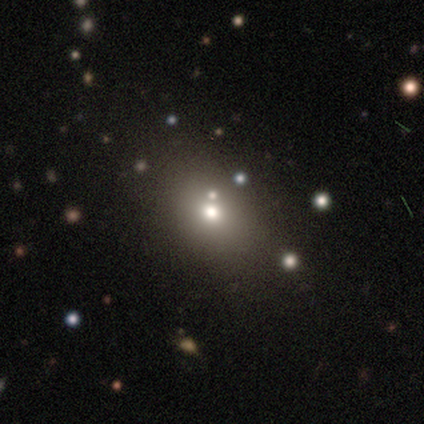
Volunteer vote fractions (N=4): Overall: smooth (100%). How rounded: in between (75%). Merging: none (100%).